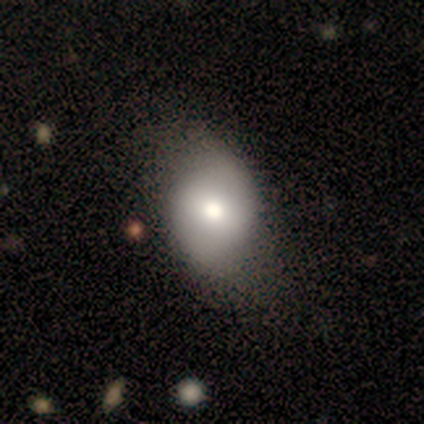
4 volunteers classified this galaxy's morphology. Smooth or featured? smooth (100%)
How rounded? in between (100%)
Merging? none (50%)